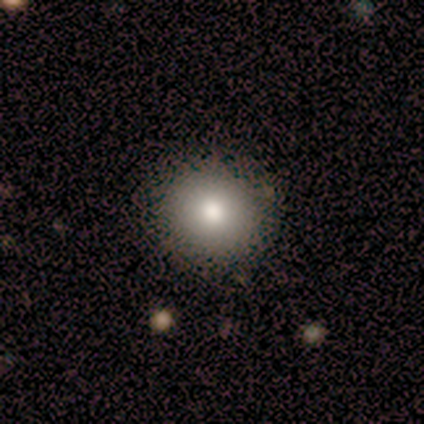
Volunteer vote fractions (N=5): A smooth galaxy with no disk features (80%) that is round (100%).

Vote fractions:
- Smooth or featured? smooth: 80% / star or artifact: 20% / featured or disk: 0%
- How rounded? round: 100% / in between: 0% / cigar-shaped: 0%
- Merging? none: 75% / minor disturbance: 25% / major disturbance: 0% / merger: 0%